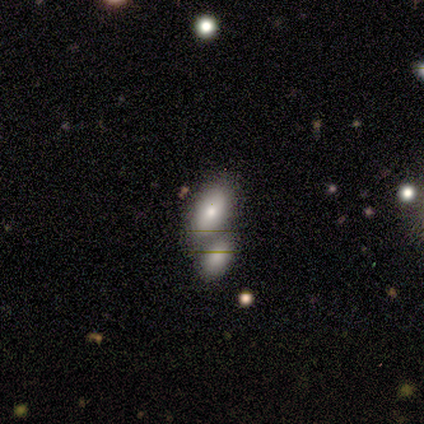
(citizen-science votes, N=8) Overall: smooth (100%). How rounded: in between (100%). Merging: none (50%; merger 38%).